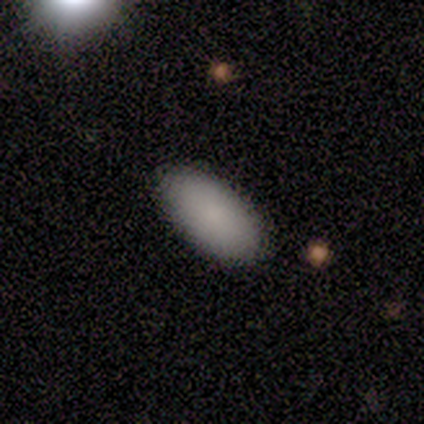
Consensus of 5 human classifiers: smooth 60%, featured or disk 40%, star or artifact 0%. Down the decision tree: how rounded — in between (100%); merging — none (60%).